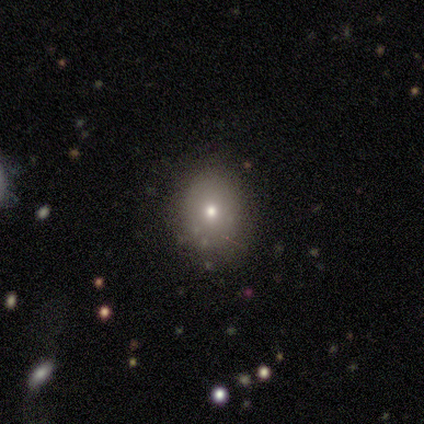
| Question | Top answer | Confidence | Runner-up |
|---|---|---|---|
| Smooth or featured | smooth | 75% | star or artifact (25%) |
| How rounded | round | 67% | in between (33%) |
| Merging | minor disturbance | 67% | none (33%) |